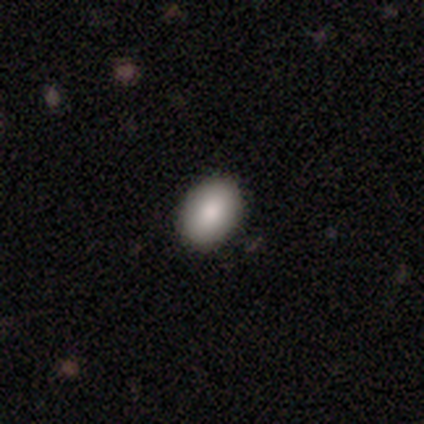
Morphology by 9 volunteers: This is clearly a smooth galaxy (100%). How rounded: clearly in between (100%). Merging: clearly none (89%).